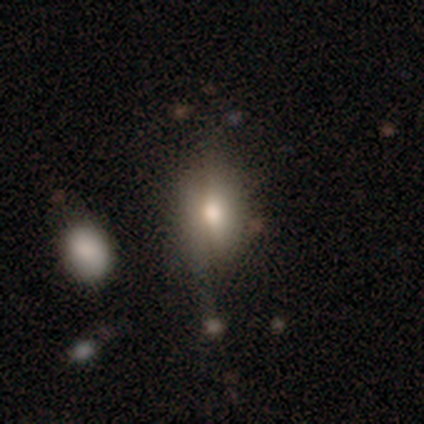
A smooth galaxy with no disk features (67%) that is in between round and cigar-shaped (71%).

Vote fractions:
- Smooth or featured? smooth: 67% / featured or disk: 18% / star or artifact: 15%
- How rounded? in between: 71% / round: 26% / cigar-shaped: 3%
- Merging? none: 57% / minor disturbance: 29% / major disturbance: 9% / merger: 5%